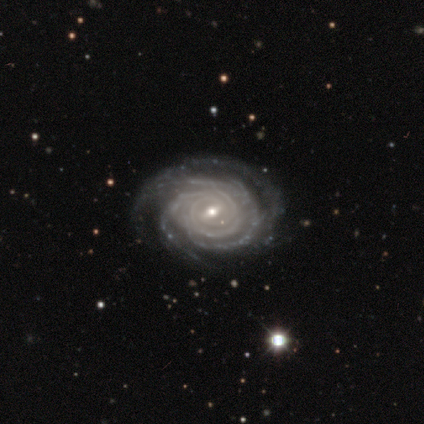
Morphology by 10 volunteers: Volunteers were most divided on "bar": weak: 67%, strong: 22%, no: 11%. More confident: edge-on disk — no (100%); spiral arms — yes (100%); smooth or featured — featured or disk (90%); spiral winding — tight (89%); bulge size — small (78%); merging — none (67%); spiral arm count — can't tell (56%).